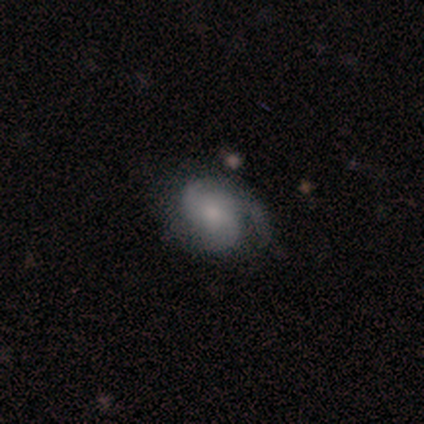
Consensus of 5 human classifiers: Smooth or featured?
  - featured or disk: 100% *
  - smooth: 0%
  - star or artifact: 0%
Edge-on disk?
  - no: 100% *
  - yes: 0%
Bar?
  - no: 60% *
  - weak: 40%
  - strong: 0%
Spiral arms?
  - yes: 100% *
  - no: 0%
Spiral winding?
  - tight: 40% * (tied)
  - loose: 40% * (tied)
  - medium: 20%
Spiral arm count?
  - 1: 40% * (tied)
  - 3: 40% * (tied)
  - can't tell: 20%
  - 2: 0%
  - 4: 0%
  - more than 4: 0%
Bulge size?
  - small: 60% *
  - moderate: 20%
  - none: 20%
  - dominant: 0%
  - large: 0%
Merging?
  - none: 60% *
  - minor disturbance: 20%
  - merger: 20%
  - major disturbance: 0%